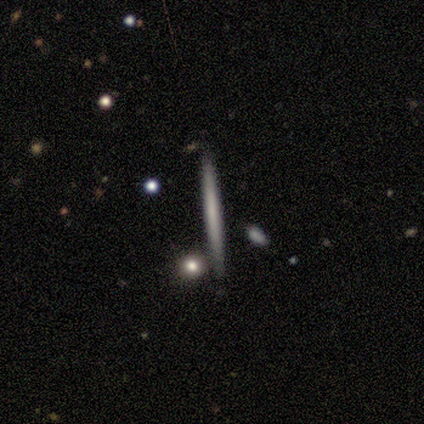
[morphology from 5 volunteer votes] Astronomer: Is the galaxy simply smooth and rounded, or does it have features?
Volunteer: smooth — 80%.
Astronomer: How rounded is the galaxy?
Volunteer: cigar-shaped — 100%.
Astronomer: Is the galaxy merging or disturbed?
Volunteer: none — 100%.